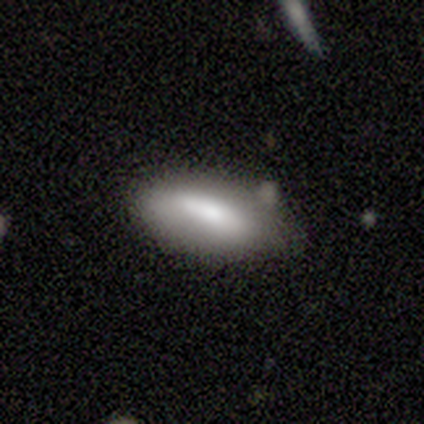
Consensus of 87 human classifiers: Smooth or featured? smooth (78%)
How rounded? in between (76%)
Merging? none (65%)